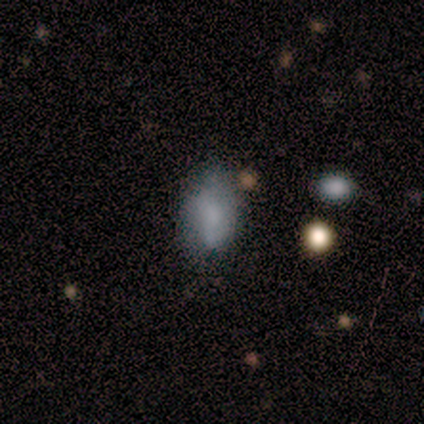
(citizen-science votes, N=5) smooth_or_featured: smooth (p=0.40) [tied with: featured or disk p=0.40]
how_rounded: in between (p=1.00)
merging: minor disturbance (p=1.00)